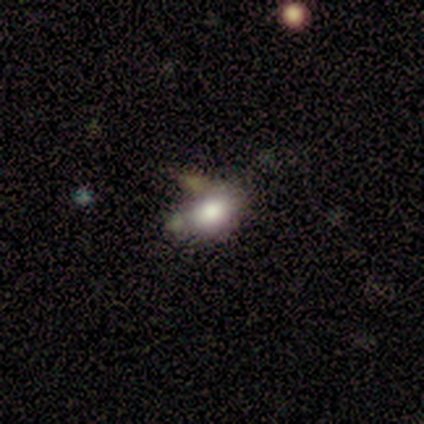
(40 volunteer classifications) This appears to be a smooth galaxy with no disk features (75%) that is in between round and cigar-shaped (73%). Merging: none (45%).